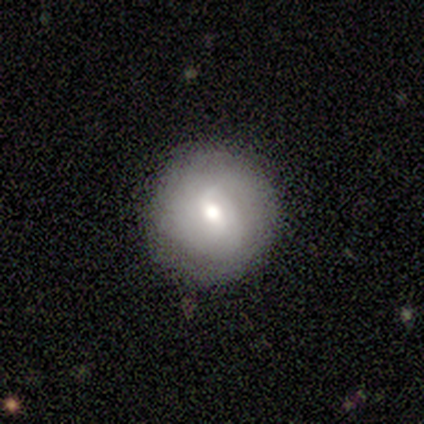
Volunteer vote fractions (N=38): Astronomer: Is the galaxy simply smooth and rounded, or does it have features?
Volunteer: smooth — 47% (runner-up: featured or disk, 42%).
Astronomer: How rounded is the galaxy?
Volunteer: round — 100%.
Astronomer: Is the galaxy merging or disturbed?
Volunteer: none — 85%.